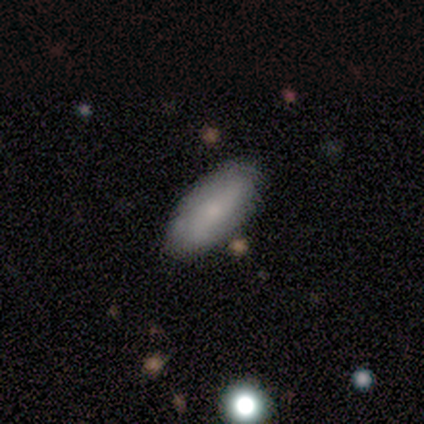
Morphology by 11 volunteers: This appears to be a smooth galaxy with no disk features (91%) that is in between round and cigar-shaped (90%). Merging: none (80%).